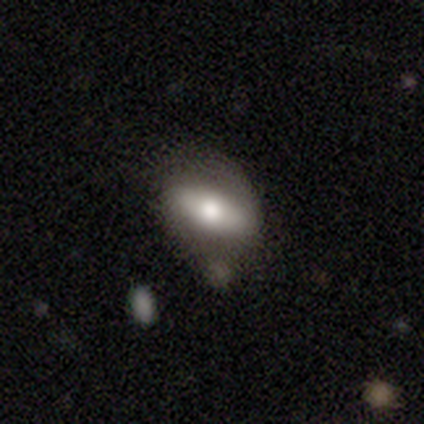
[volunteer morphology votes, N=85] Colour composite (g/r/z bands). It shows a featured or disk galaxy (52%) with no bar (39%), no spiral arms (61%) and a moderate central bulge (70%). Merging: none (51%).